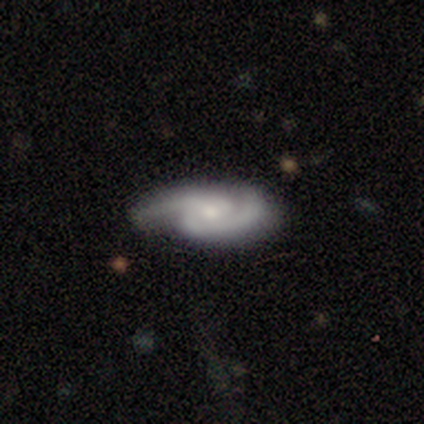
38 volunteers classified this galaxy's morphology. smooth_or_featured: featured or disk (p=0.84) [alt: smooth p=0.11]
disk_edge_on: no (p=1.00)
bar: no (p=0.50) [alt: weak p=0.34]
has_spiral_arms: yes (p=0.97) [alt: no p=0.03]
spiral_winding: medium (p=0.45) [alt: tight p=0.32]
spiral_arm_count: 2 (p=1.00)
bulge_size: moderate (p=0.47) [alt: small p=0.41]
merging: none (p=0.83) [alt: minor disturbance p=0.06]